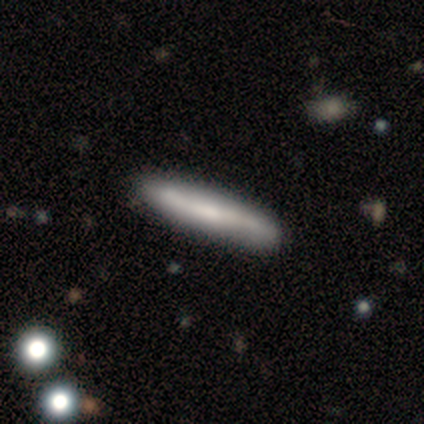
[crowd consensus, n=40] This is likely a smooth galaxy (65%). How rounded: clearly cigar-shaped (96%). Merging: clearly none (88%).